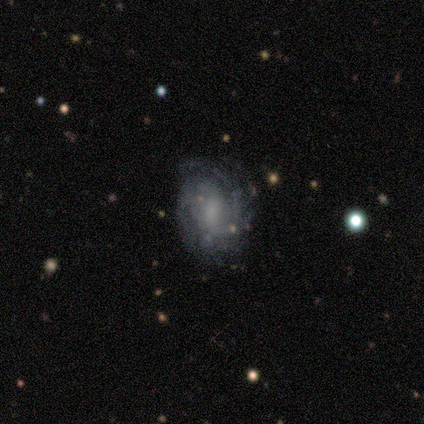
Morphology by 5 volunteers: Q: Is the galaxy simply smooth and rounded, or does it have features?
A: featured or disk — 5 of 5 (100%).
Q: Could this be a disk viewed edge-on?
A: no — 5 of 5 (100%).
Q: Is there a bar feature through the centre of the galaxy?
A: weak — 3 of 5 (60%).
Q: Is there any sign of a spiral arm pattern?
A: yes — 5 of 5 (100%).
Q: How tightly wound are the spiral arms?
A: medium — 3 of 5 (60%).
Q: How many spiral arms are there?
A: can't tell — 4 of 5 (80%).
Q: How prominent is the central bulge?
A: small — 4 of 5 (80%).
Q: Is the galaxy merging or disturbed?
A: none — 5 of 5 (100%).